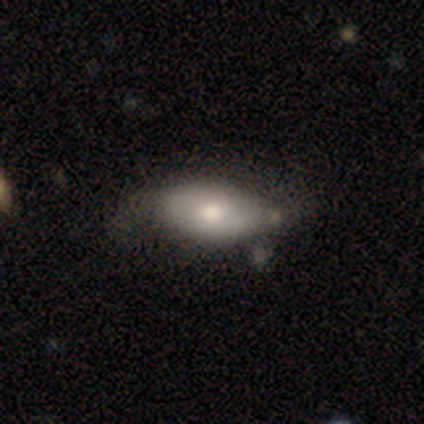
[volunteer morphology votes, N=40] This appears to be a smooth galaxy with no disk features (80%) that is in between round and cigar-shaped (100%). Merging: minor disturbance (41%).